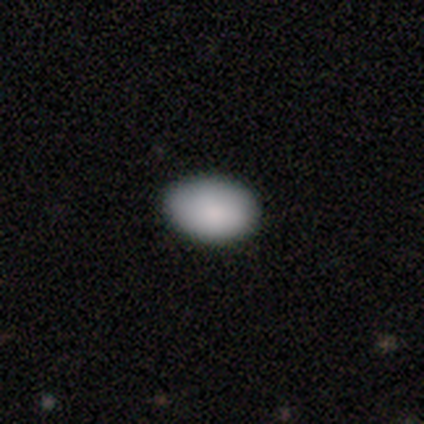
smooth-or-featured: smooth: 82% | featured or disk: 10% | star or artifact: 8%
  how-rounded: in between: 84% | round: 16% | cigar-shaped: 0%
  merging: none: 64% | minor disturbance: 8% | major disturbance: 3% | merger: 0%